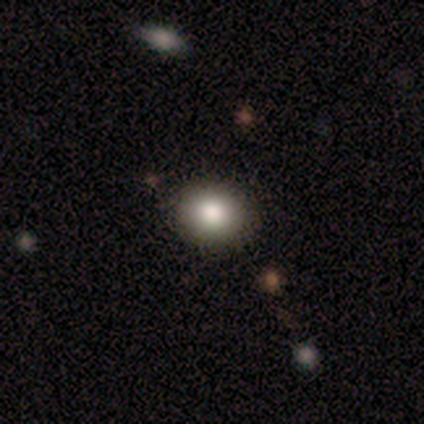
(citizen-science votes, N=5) Overall: smooth (100%). How rounded: in between (60%; round 40%). Merging: none (100%).